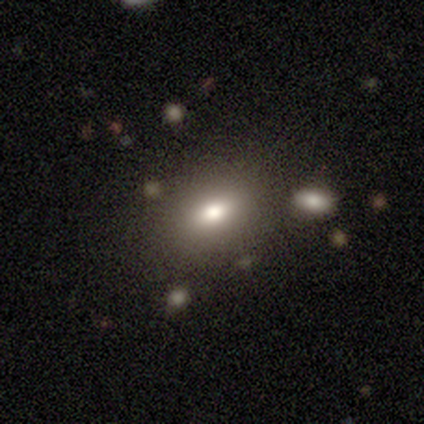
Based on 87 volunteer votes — This appears to be a smooth galaxy with no disk features (64%) that is in between round and cigar-shaped (79%). Merging: none (78%).